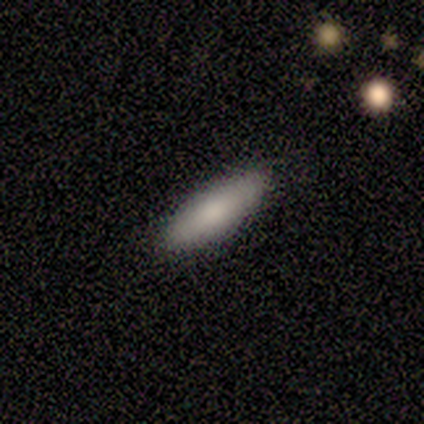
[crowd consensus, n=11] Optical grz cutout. It shows a smooth galaxy with no disk features (91%) that is in between round and cigar-shaped (60%). Merging: none (100%).